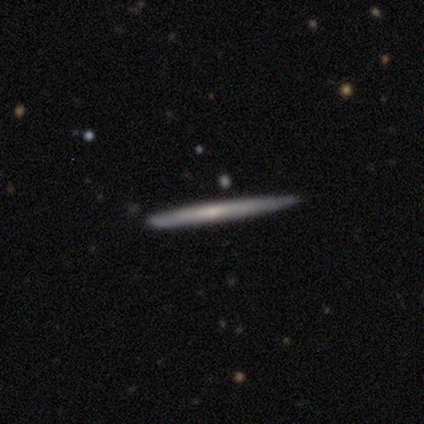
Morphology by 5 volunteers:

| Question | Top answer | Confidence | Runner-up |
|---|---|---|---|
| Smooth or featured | featured or disk | 80% | smooth (20%) |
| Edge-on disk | yes | 100% | — |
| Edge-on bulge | none | 100% | — |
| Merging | none | 80% | minor disturbance (20%) |